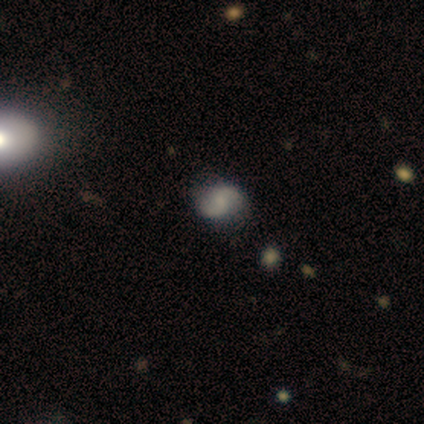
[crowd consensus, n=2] featured or disk 100%, smooth 0%, star or artifact 0%. Down the decision tree: edge-on disk — no (100%); bar — no (100%); spiral arms — yes (100%); spiral arm count — 2 (100%); spiral winding — loose (100%); bulge size — small (50%, tied with none); merging — none (100%).